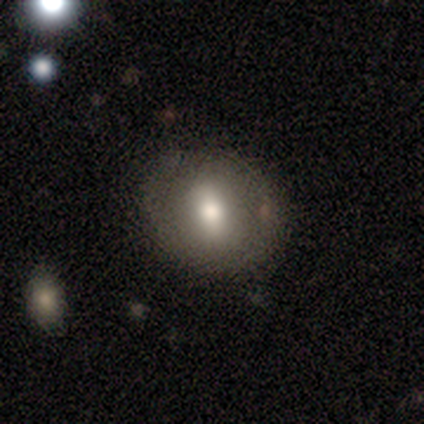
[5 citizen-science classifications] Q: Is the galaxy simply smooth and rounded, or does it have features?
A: smooth — 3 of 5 (60%).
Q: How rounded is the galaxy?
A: round — 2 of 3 (67%).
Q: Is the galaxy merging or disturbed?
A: none — 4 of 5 (80%).